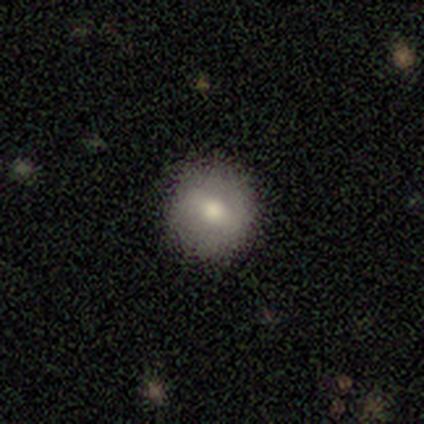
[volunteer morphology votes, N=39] Smooth or featured: smooth — 49% (featured or disk — 33%)
How rounded: round — 89% (in between — 11%)
Merging: none — 81% (minor disturbance — 16%)